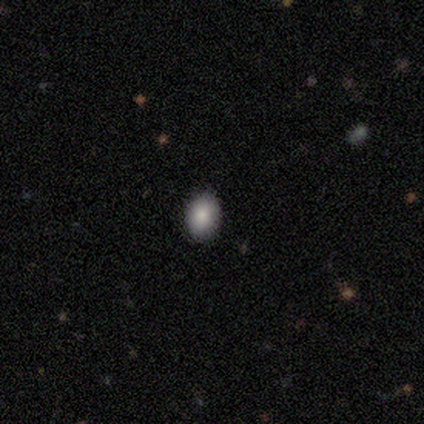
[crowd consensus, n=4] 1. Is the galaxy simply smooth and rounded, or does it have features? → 100% smooth, 0% featured or disk, 0% star or artifact.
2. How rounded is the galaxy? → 75% in between, 25% round, 0% cigar-shaped.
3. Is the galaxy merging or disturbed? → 100% none, 0% minor disturbance, 0% major disturbance, 0% merger.